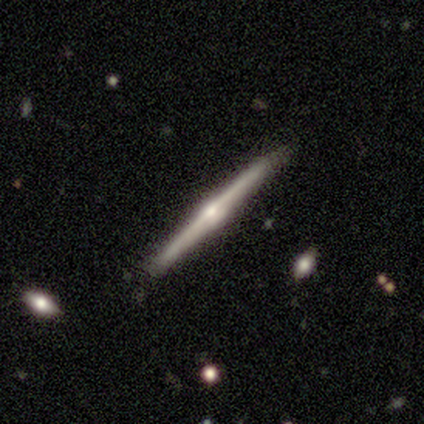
Smooth or featured? featured or disk (100%)
Edge-on disk? yes (100%)
Edge-on bulge? rounded (100%)
Merging? none (100%)